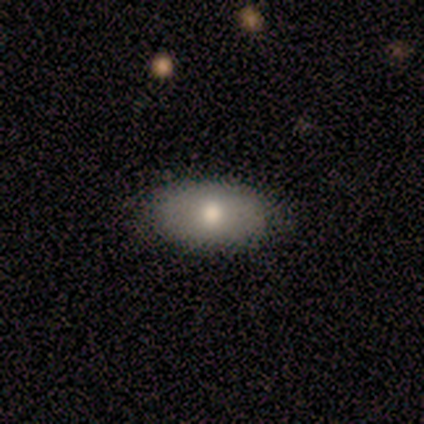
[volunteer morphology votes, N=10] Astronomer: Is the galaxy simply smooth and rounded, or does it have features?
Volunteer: smooth — 90%.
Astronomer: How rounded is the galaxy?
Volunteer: in between — 89%.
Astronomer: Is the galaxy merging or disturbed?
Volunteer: none — 90%.